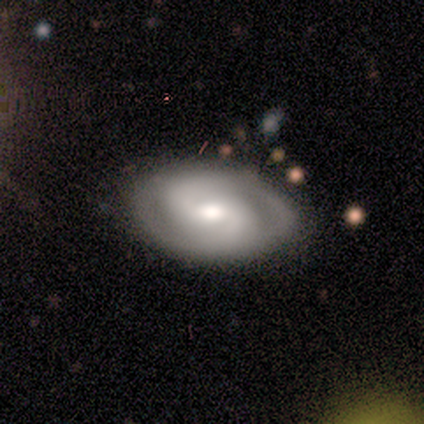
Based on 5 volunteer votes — Smooth or featured?
  - featured or disk: 100% *
  - smooth: 0%
  - star or artifact: 0%
Edge-on disk?
  - no: 100% *
  - yes: 0%
Bar?
  - weak: 60% *
  - strong: 20%
  - no: 20%
Spiral arms?
  - yes: 100% *
  - no: 0%
Spiral winding?
  - medium: 60% *
  - tight: 40%
  - loose: 0%
Spiral arm count?
  - 2: 100% *
  - 1: 0%
  - 3: 0%
  - 4: 0%
  - more than 4: 0%
  - can't tell: 0%
Bulge size?
  - moderate: 100% *
  - dominant: 0%
  - large: 0%
  - small: 0%
  - none: 0%
Merging?
  - none: 80% *
  - major disturbance: 20%
  - minor disturbance: 0%
  - merger: 0%